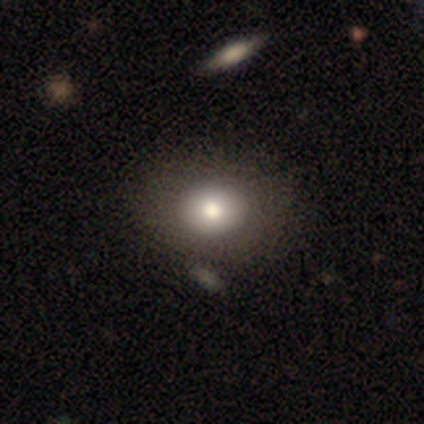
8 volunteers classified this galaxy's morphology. This is clearly a smooth galaxy (88%). How rounded: possibly in between (57%). Merging: likely none (71%).